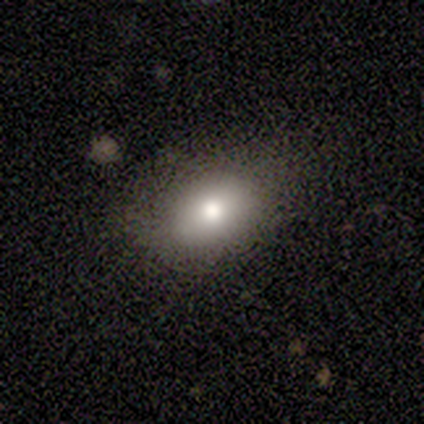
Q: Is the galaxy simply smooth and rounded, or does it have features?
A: smooth — 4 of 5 (80%).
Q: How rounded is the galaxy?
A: in between — 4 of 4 (100%).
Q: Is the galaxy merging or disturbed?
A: none — 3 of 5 (60%).